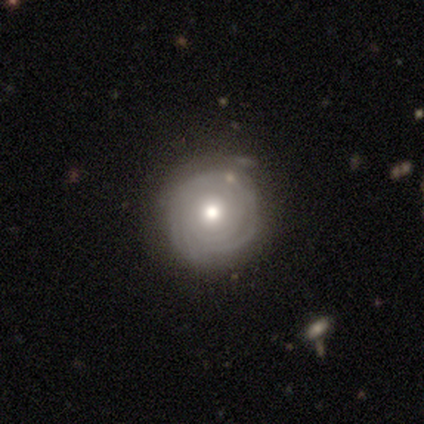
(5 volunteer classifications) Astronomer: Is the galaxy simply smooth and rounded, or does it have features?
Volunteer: featured or disk — 100%.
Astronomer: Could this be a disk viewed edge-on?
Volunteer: no — 80%.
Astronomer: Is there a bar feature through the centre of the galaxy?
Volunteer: no — 100%.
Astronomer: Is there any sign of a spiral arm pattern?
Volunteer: yes — 100%.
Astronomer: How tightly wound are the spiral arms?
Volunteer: tight — 75%.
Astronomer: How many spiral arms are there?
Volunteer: can't tell — 75%.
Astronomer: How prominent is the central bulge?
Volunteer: moderate — 100%.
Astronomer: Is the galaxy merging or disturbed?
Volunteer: none — 60% (runner-up: minor disturbance, 40%).